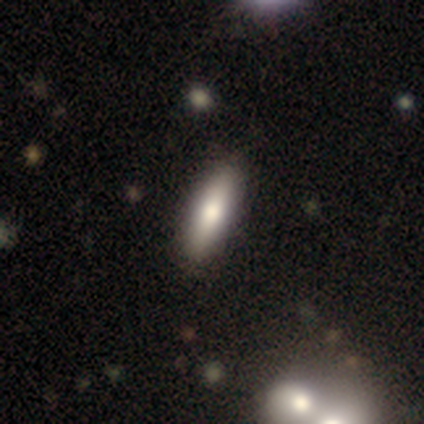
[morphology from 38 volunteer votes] A smooth galaxy with no disk features (84%) that is cigar-shaped (62%). Merging: none (75%).